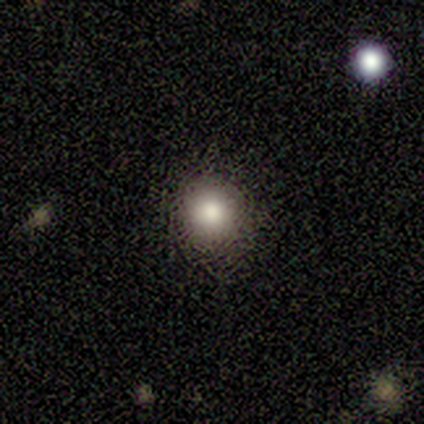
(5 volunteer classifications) Smooth or featured?
  - smooth: 100% *
  - featured or disk: 0%
  - star or artifact: 0%
How rounded?
  - round: 100% *
  - in between: 0%
  - cigar-shaped: 0%
Merging?
  - none: 100% *
  - minor disturbance: 0%
  - major disturbance: 0%
  - merger: 0%